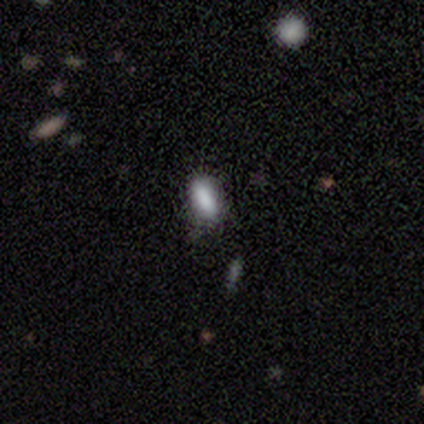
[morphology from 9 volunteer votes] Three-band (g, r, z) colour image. It shows a smooth galaxy with no disk features (89%) that is in between round and cigar-shaped (88%). Merging: none (62%).